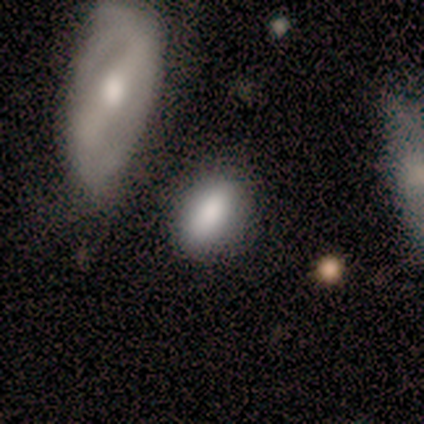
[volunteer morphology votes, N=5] Q: Smooth or featured?
A: smooth (80%); runner-up: star or artifact (20%)
Q: How rounded?
A: in between (75%); runner-up: round (25%)
Q: Merging?
A: none (50%); runner-up: minor disturbance (25%)